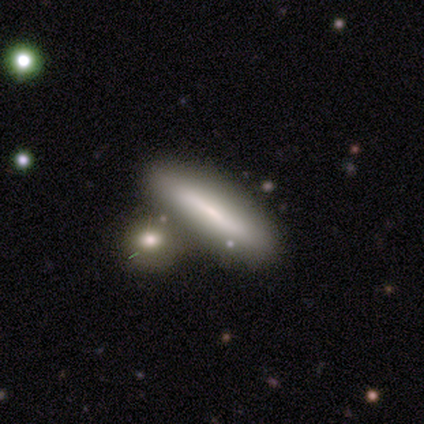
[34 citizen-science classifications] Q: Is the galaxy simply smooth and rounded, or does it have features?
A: smooth — 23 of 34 (68%).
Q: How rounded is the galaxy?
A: cigar-shaped — 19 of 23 (83%).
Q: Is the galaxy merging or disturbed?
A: merger — 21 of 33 (64%).